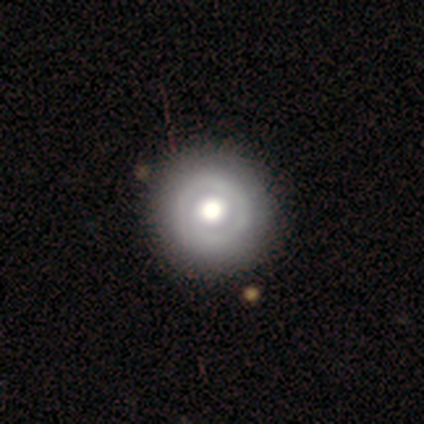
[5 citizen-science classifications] Smooth or featured? 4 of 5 (80%) said featured or disk. Edge-on disk? 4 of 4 (100%) said no. Bar? 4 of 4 (100%) said no. Spiral arms? 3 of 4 (75%) said no. Bulge size? 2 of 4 (50%, tied with moderate) said large. Merging? 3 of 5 (60%) said minor disturbance.